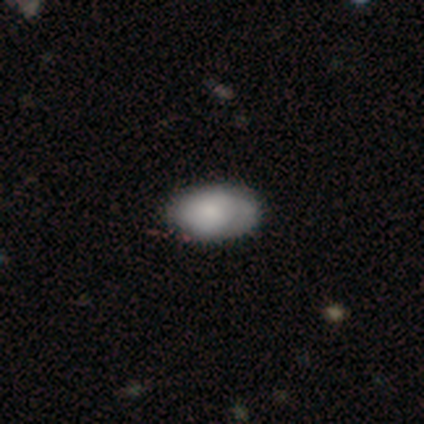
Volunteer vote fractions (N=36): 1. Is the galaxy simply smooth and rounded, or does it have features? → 75% smooth, 19% featured or disk, 6% star or artifact.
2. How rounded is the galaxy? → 100% in between, 0% round, 0% cigar-shaped.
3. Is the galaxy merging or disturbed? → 74% none, 26% minor disturbance, 0% major disturbance, 0% merger.